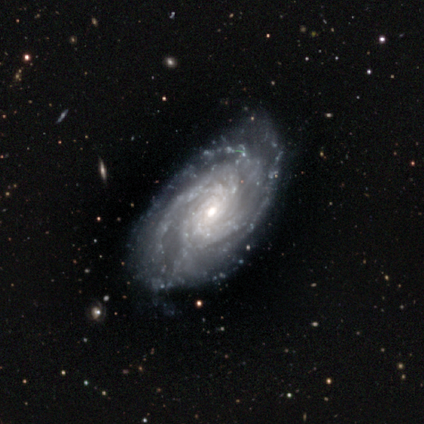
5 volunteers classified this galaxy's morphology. featured or disk 100%, smooth 0%, star or artifact 0%. Down the decision tree: edge-on disk — no (80%); bar — strong (50%); spiral arms — yes (100%); spiral arm count — 2 (25%, tied with 4, more than 4 and can't tell); spiral winding — tight (75%); bulge size — small (75%); merging — none (80%).